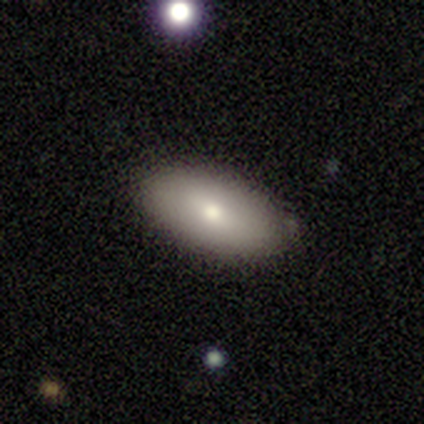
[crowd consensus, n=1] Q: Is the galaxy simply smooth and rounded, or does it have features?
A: smooth — 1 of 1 (100%).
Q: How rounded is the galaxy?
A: in between — 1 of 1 (100%).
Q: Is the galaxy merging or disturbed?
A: none — 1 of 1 (100%).